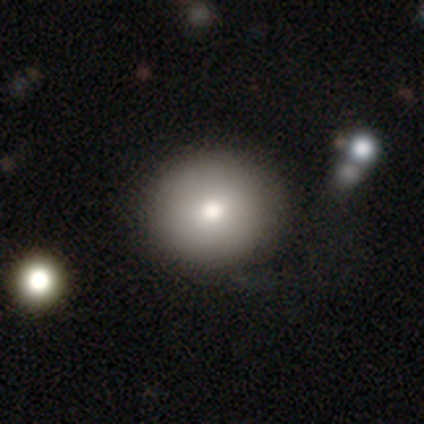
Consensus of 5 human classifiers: A smooth galaxy with no disk features (100%) that is round (100%).

Vote fractions:
- Smooth or featured? smooth: 100% / featured or disk: 0% / star or artifact: 0%
- How rounded? round: 100% / in between: 0% / cigar-shaped: 0%
- Merging? none: 100% / minor disturbance: 0% / major disturbance: 0% / merger: 0%